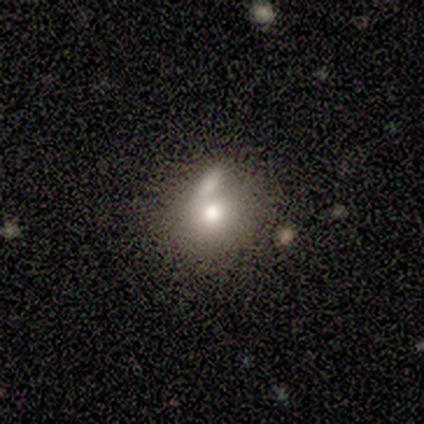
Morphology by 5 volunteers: Smooth or featured?
  - smooth: 80% *
  - featured or disk: 20%
  - star or artifact: 0%
How rounded?
  - round: 100% *
  - in between: 0%
  - cigar-shaped: 0%
Merging?
  - major disturbance: 40% * (tied)
  - merger: 40% * (tied)
  - none: 20%
  - minor disturbance: 0%